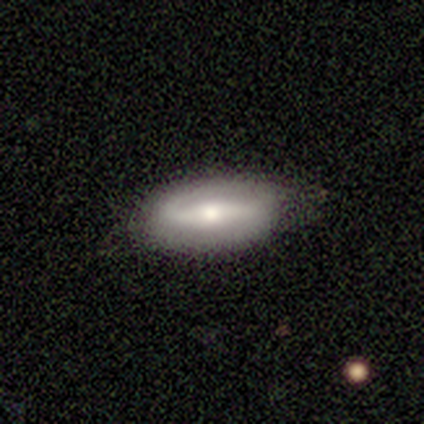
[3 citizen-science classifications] Overall: smooth (67%; featured or disk 33%). How rounded: in between (100%). Merging: none (67%; merger 33%).